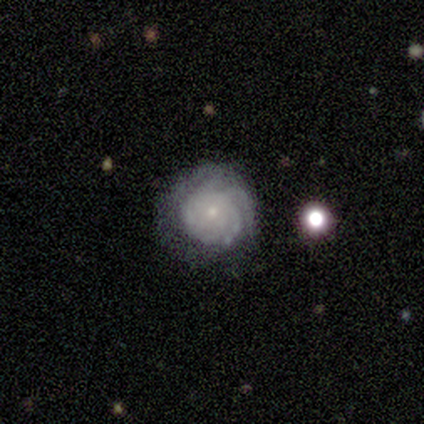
This is clearly a featured or disk galaxy (100%). It is clearly not viewed edge-on (100%). Bar: clearly no (100%). Spiral arm pattern: clearly yes (100%). Spiral arm count: marginally 4 (40%, tied with can't tell). Spiral winding: clearly tight (80%). Central bulge: clearly small (100%). Merging: likely minor disturbance (60%).